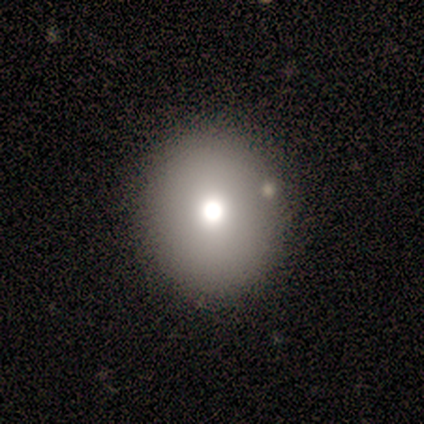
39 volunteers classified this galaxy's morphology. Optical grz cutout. It shows a smooth galaxy with no disk features (79%) that is round (77%). Merging: none (89%).